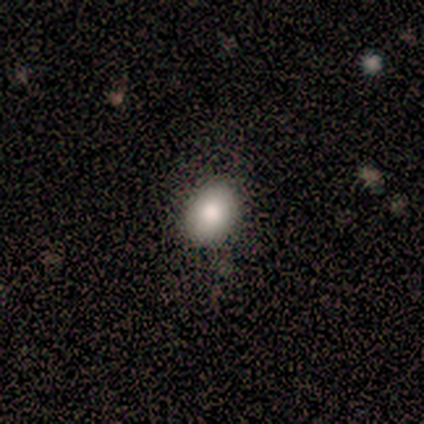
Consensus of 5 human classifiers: Smooth or featured?
  - smooth: 40% * (tied)
  - star or artifact: 40% * (tied)
  - featured or disk: 20%
How rounded?
  - in between: 100% *
  - round: 0%
  - cigar-shaped: 0%
Merging?
  - none: 67% *
  - major disturbance: 33%
  - minor disturbance: 0%
  - merger: 0%